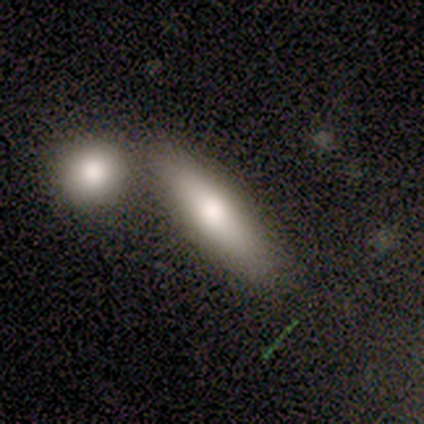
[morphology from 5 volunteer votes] A smooth galaxy with no disk features (80%) that is in between round and cigar-shaped (50%, tied with cigar-shaped).

Vote fractions:
- Smooth or featured? smooth: 80% / featured or disk: 20% / star or artifact: 0%
- How rounded? in between: 50% (tied) / cigar-shaped: 50% (tied) / round: 0%
- Merging? none: 80% / merger: 20% / minor disturbance: 0% / major disturbance: 0%